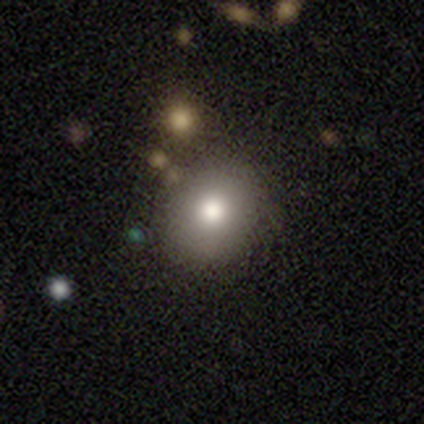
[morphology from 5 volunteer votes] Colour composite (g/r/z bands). It shows a smooth galaxy with no disk features (80%) that is round (100%). Merging: none (50%).